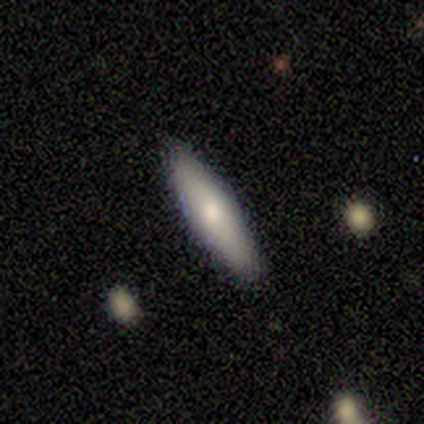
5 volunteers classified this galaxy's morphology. Overall: smooth (60%; featured or disk 40%). How rounded: in between (67%; cigar-shaped 33%). Merging: none (80%).